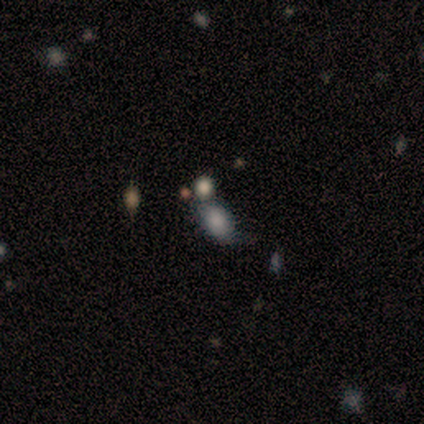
This is clearly a smooth galaxy (80%). How rounded: clearly in between (100%). Merging: marginally none (25%, tied with minor disturbance, major disturbance and merger).